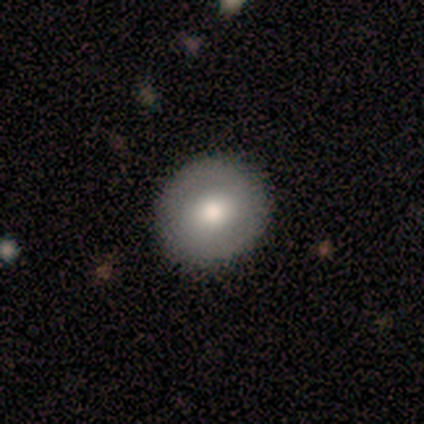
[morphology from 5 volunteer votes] smooth_or_featured: smooth (p=0.80) [alt: featured or disk p=0.20]
how_rounded: round (p=1.00)
merging: none (p=1.00)